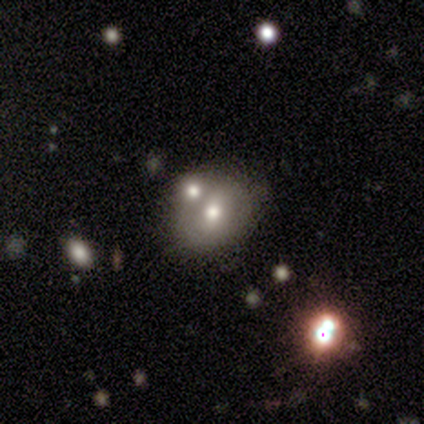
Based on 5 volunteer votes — Q: Smooth or featured?
A: smooth (60%); runner-up: featured or disk (20%)
Q: How rounded?
A: in between (67%); runner-up: round (33%)
Q: Merging?
A: none (50%); runner-up: minor disturbance (25%)